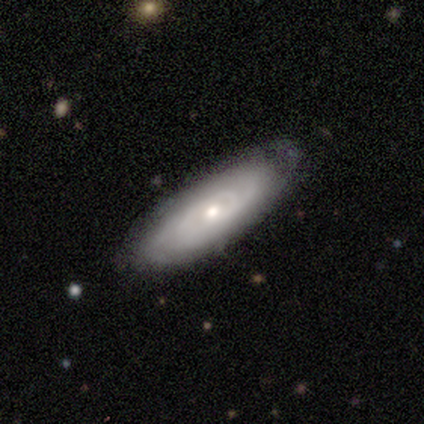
Morphology: type=featured or disk (66%); edge-on=no (78%); bar=no (86%); spiral arms=yes (76%); winding=tight (75%); arm count=can't tell (62%); bulge=moderate (62%); merging=none (78%).